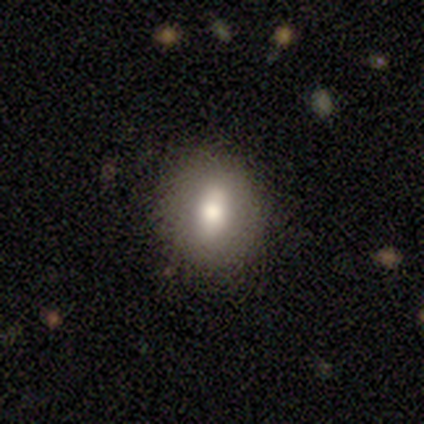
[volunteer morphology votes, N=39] type=smooth (72%); roundness=round (57%); merging=none (81%).